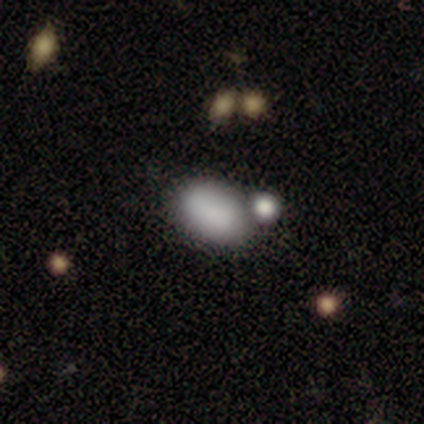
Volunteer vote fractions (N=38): Morphology: type=smooth (87%); roundness=in between (85%); merging=none (43%).